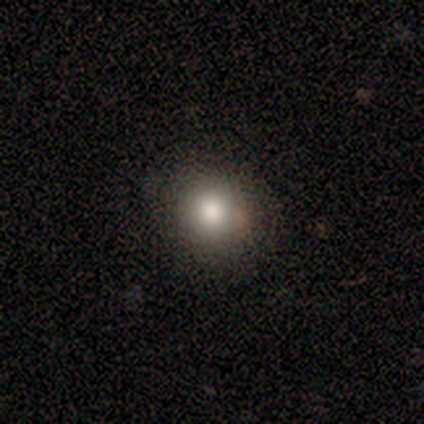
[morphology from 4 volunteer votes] Smooth or featured? 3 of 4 (75%) said smooth. How rounded? 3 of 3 (100%) said round. Merging? 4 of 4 (100%) said none.